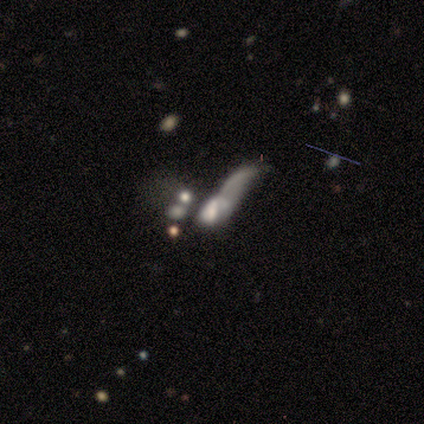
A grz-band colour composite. It shows a featured or disk galaxy (50%) with a strong bar (50%, tied with weak), 1 (100%) loose (100%) spiral arms (100%) and a large central bulge (50%, tied with none). Merging: major disturbance (67%).